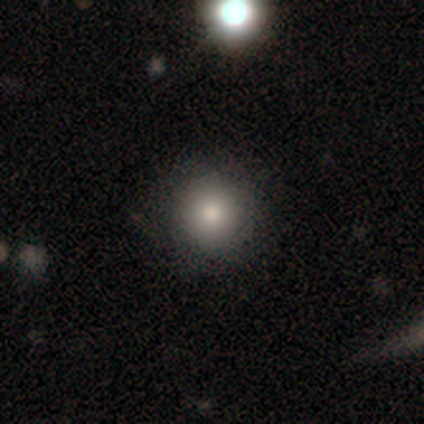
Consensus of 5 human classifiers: This is clearly a smooth galaxy (100%). How rounded: clearly round (100%). Merging: clearly none (100%).